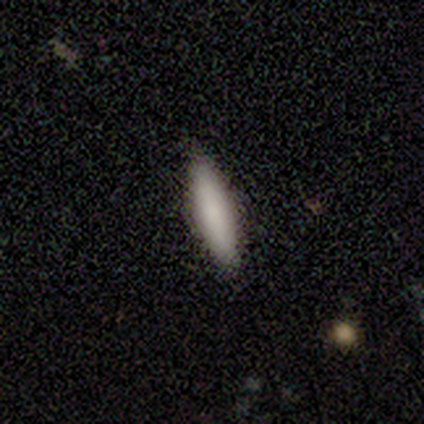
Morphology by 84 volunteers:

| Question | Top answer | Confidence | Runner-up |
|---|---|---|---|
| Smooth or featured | smooth | 86% | featured or disk (8%) |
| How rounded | cigar-shaped | 72% | in between (24%) |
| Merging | none | 84% | minor disturbance (14%) |